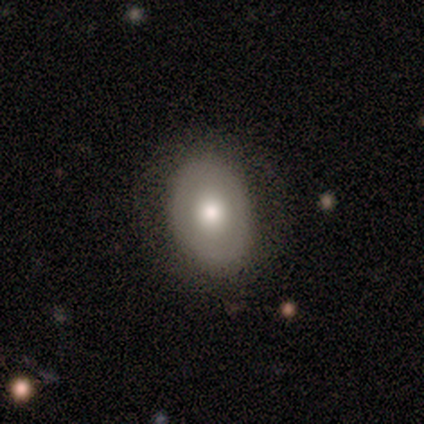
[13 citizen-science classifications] This appears to be a smooth galaxy with no disk features (62%) that is in between round and cigar-shaped (88%). Merging: none (75%).